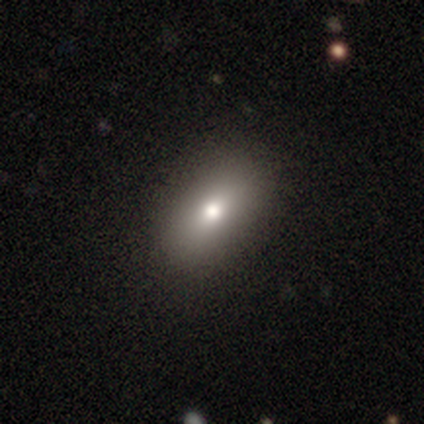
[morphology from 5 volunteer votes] Smooth or featured: star or artifact — 60% (smooth — 40%)